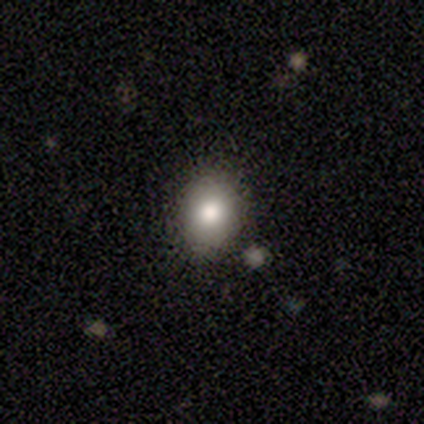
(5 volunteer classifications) Morphology: type=smooth (100%); roundness=in between (80%); merging=none (100%).